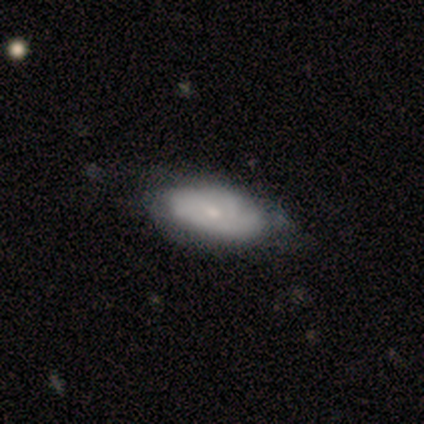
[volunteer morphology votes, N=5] A featured or disk galaxy (60%) with a weak bar (67%), no spiral arms (67%) and a small central bulge (67%).

Vote fractions:
- Smooth or featured? featured or disk: 60% / smooth: 40% / star or artifact: 0%
- Edge-on disk? no: 100% / yes: 0%
- Bar? weak: 67% / no: 33% / strong: 0%
- Spiral arms? no: 67% / yes: 33%
- Bulge size? small: 67% / moderate: 33% / dominant: 0% / large: 0% / none: 0%
- Merging? none: 60% / minor disturbance: 40% / major disturbance: 0% / merger: 0%